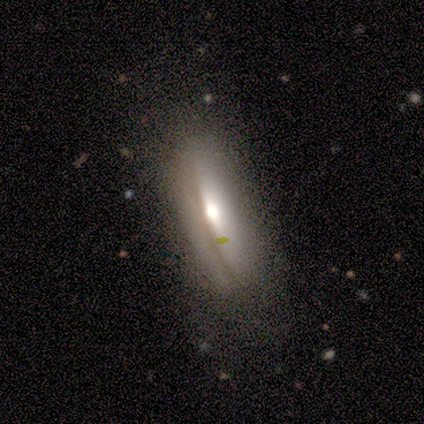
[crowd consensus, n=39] This is possibly a featured or disk galaxy (51%). It is likely viewed edge-on (70%). Edge-on bulge: likely rounded (79%). Merging: possibly none (59%).